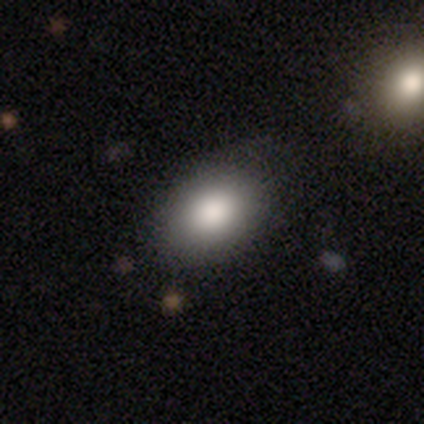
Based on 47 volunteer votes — Smooth or featured: smooth — 85% (star or artifact — 11%)
How rounded: in between — 72% (round — 25%)
Merging: none — 79% (minor disturbance — 14%)